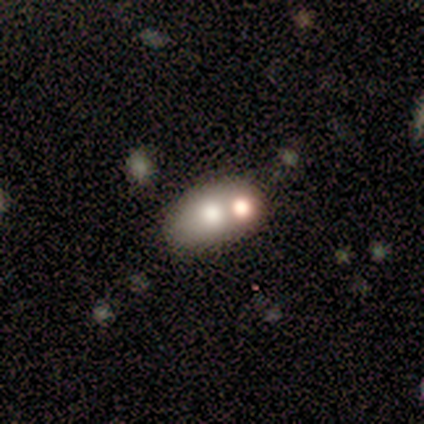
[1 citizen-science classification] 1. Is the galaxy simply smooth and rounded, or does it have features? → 100% featured or disk, 0% smooth, 0% star or artifact.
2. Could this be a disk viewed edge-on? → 100% no, 0% yes.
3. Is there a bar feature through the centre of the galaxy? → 100% no, 0% strong, 0% weak.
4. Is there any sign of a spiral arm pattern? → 100% no, 0% yes.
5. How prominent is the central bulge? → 100% moderate, 0% dominant, 0% large, 0% small, 0% none.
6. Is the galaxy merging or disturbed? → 100% merger, 0% none, 0% minor disturbance, 0% major disturbance.